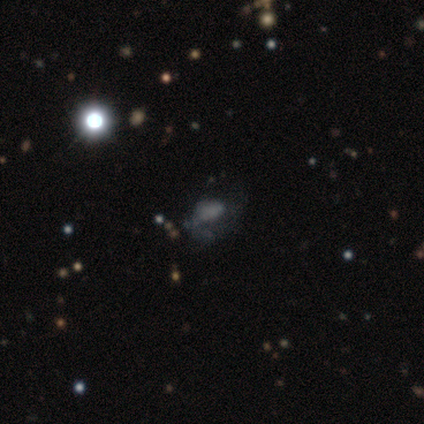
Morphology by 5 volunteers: Overall: smooth (40%, tied with featured or disk). How rounded: round (100%). Merging: none (50%; minor disturbance 25%).